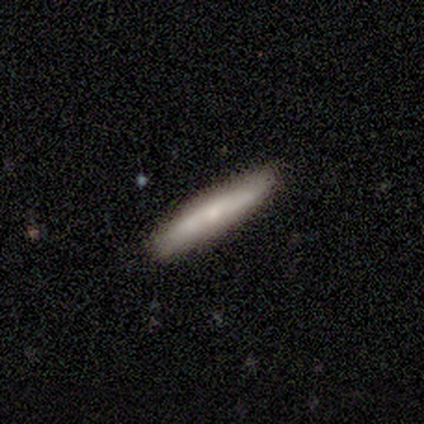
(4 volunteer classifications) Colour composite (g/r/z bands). It shows a smooth galaxy with no disk features (75%) that is cigar-shaped (100%). Merging: none (75%).